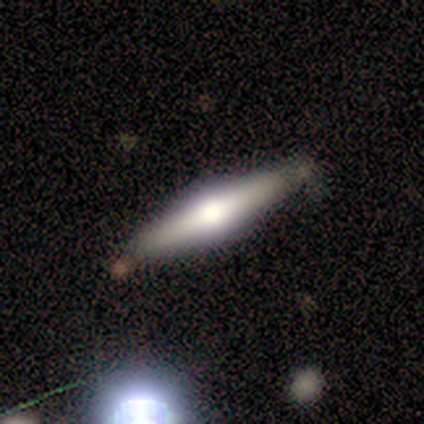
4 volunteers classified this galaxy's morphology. type=featured or disk (100%); edge-on=yes (100%); edge-on bulge=rounded (100%); merging=none (50%).